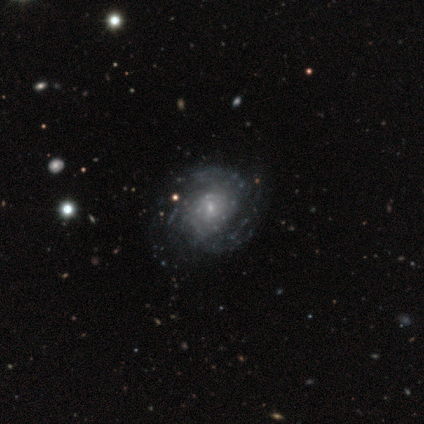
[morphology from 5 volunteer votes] This is clearly a featured or disk galaxy (80%). It is clearly not viewed edge-on (100%). Bar: possibly no (50%). Spiral arm pattern: likely yes (75%). Spiral arm count: likely 2 (67%). Spiral winding: likely medium (67%). Central bulge: likely small (75%). Merging: likely none (60%).